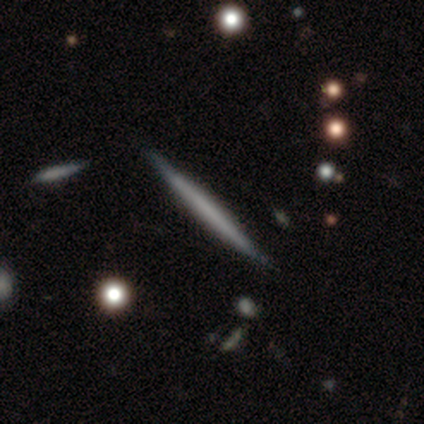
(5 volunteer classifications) Smooth or featured? smooth (60%)
How rounded? cigar-shaped (100%)
Merging? none (100%)